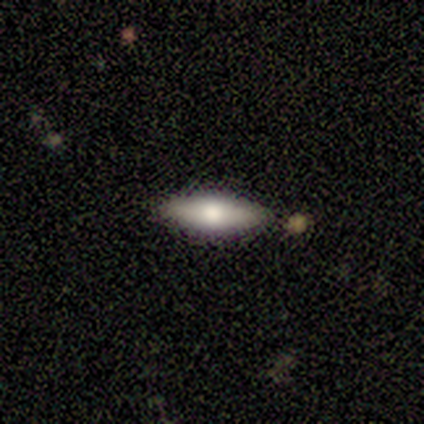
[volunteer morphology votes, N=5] A smooth galaxy with no disk features (60%) that is in between round and cigar-shaped (100%). Merging: none (100%).